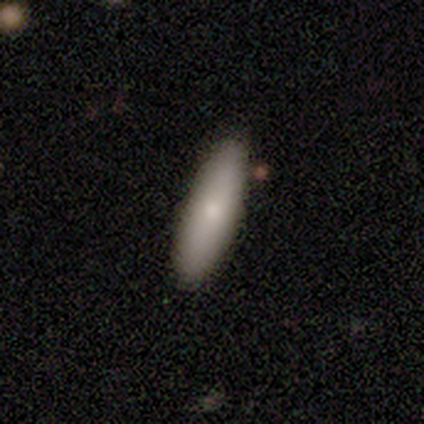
smooth 60%, featured or disk 20%, star or artifact 20%. Down the decision tree: how rounded — cigar-shaped (100%); merging — none (100%).